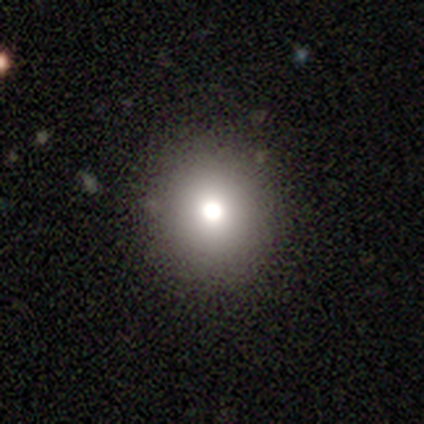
Morphology: type=smooth (77%); roundness=round (100%); merging=none (100%).